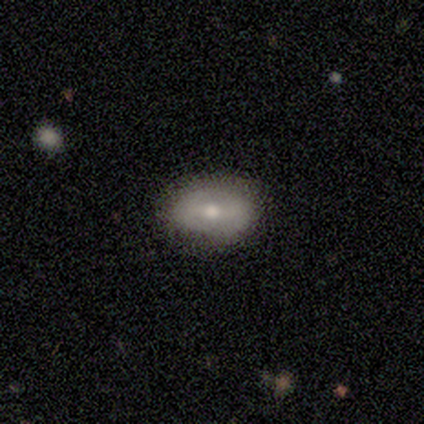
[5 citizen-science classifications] This is likely a featured or disk galaxy (60%). It is clearly not viewed edge-on (100%). Bar: marginally strong (33%, tied with weak and no). Spiral arm pattern: likely yes (67%). Spiral arm count: clearly 2 (100%). Spiral winding: possibly tight (50%, tied with medium). Central bulge: likely moderate (67%). Merging: clearly none (100%).